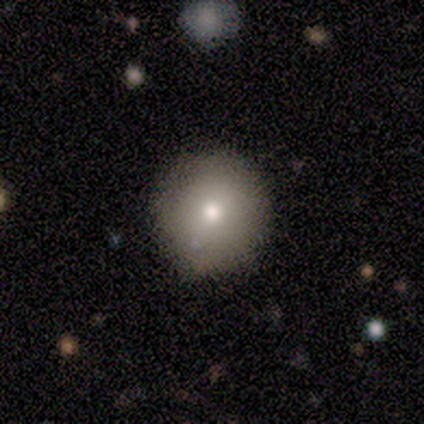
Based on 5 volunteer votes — smooth 100%, featured or disk 0%, star or artifact 0%. Down the decision tree: how rounded — round (100%); merging — none (100%).